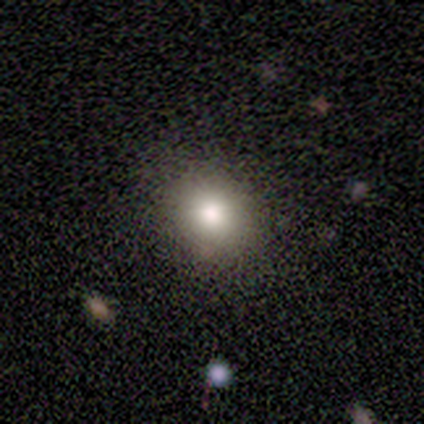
smooth-or-featured: smooth: 60% | star or artifact: 40% | featured or disk: 0%
  how-rounded: round: 100% | in between: 0% | cigar-shaped: 0%
  merging: none: 100% | minor disturbance: 0% | major disturbance: 0% | merger: 0%